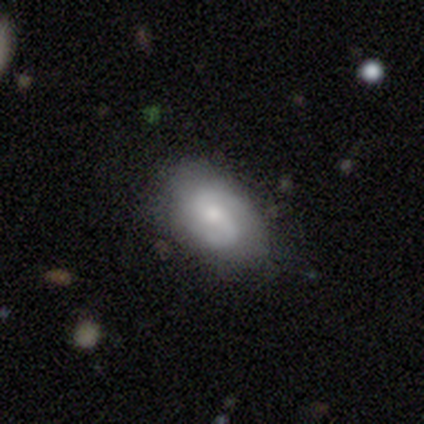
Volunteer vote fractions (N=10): smooth-or-featured: featured or disk: 60% | smooth: 40% | star or artifact: 0%
  disk-edge-on: no: 100% | yes: 0%
    bar: weak: 83% | no: 17% | strong: 0%
    has-spiral-arms: yes: 100% | no: 0%
      spiral-winding: medium: 83% | loose: 17% | tight: 0%
      spiral-arm-count: 2: 83% | 1: 17% | 3: 0% | 4: 0% | more than 4: 0% | can't tell: 0%
    bulge-size: moderate: 50% | small: 33% | none: 17% | dominant: 0% | large: 0%
  merging: none: 80% | minor disturbance: 20% | major disturbance: 0% | merger: 0%